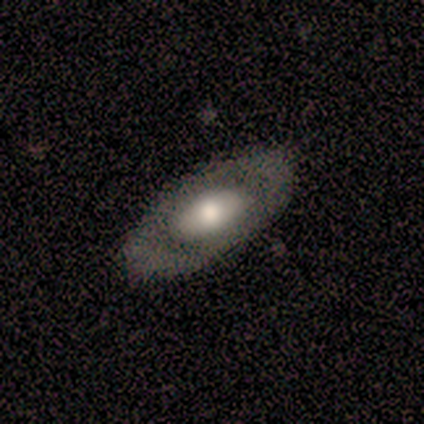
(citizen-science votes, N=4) Q: Smooth or featured?
A: featured or disk (50%); runner-up: smooth (25%)
Q: Edge-on disk?
A: no (100%)
Q: Bar?
A: no (100%)
Q: Spiral arms?
A: no (100%)
Q: Bulge size?
A: large (100%)
Q: Merging?
A: none (100%)